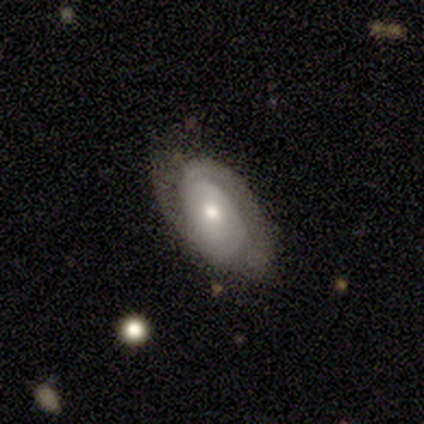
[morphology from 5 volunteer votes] Overall: smooth (40%, tied with featured or disk). How rounded: in between (100%). Merging: none (75%).